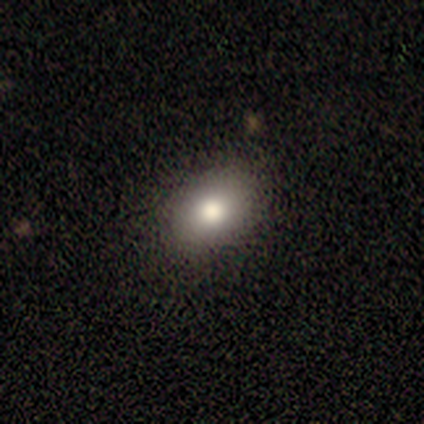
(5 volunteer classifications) Smooth or featured? 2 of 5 (40%, tied with star or artifact) said smooth. How rounded? 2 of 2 (100%) said in between. Merging? 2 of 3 (67%) said none.